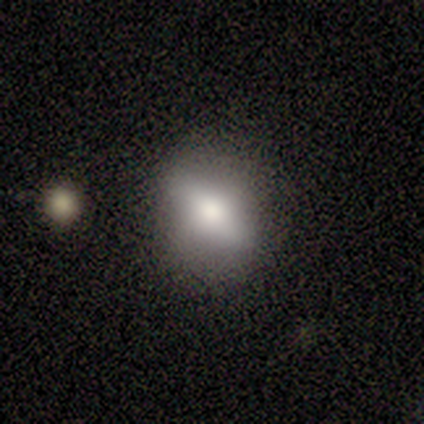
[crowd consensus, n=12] smooth_or_featured: smooth (p=0.50) [alt: featured or disk p=0.33]
how_rounded: in between (p=0.67) [alt: round p=0.17]
merging: none (p=0.70) [alt: minor disturbance p=0.20]